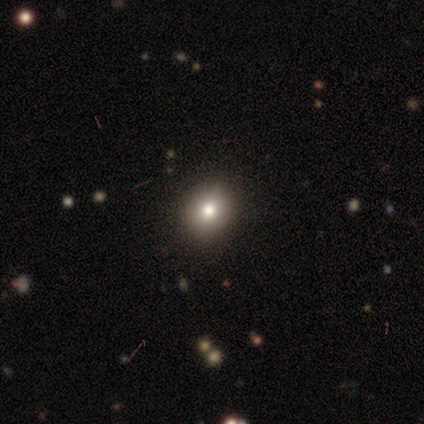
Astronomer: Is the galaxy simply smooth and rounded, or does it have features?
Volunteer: smooth — 77%.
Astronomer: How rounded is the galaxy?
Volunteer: round — 60% (runner-up: in between, 40%).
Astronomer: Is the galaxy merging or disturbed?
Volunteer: none — 73%.